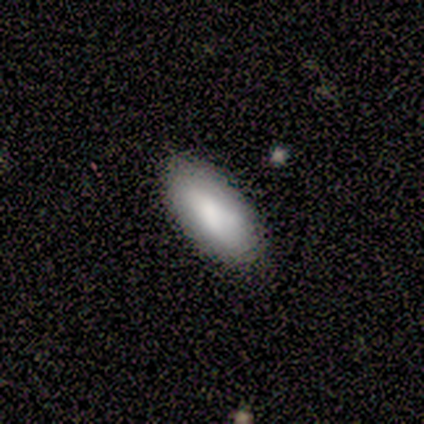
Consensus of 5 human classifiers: Q: Smooth or featured?
A: smooth (80%); runner-up: star or artifact (20%)
Q: How rounded?
A: in between (100%)
Q: Merging?
A: none (75%); runner-up: merger (25%)